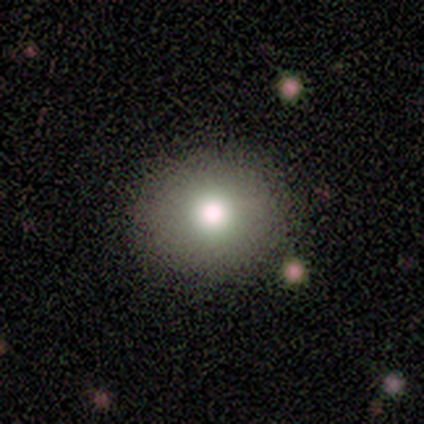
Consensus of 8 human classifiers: smooth_or_featured: smooth (p=1.00)
how_rounded: round (p=0.75) [alt: in between p=0.25]
merging: none (p=1.00)